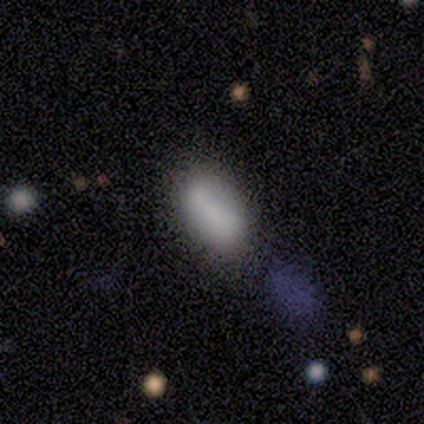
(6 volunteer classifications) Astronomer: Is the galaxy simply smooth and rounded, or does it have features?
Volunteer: smooth — 100%.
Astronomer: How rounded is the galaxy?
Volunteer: in between — 67%.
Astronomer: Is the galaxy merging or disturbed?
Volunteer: none — 50% (runner-up: merger, 33%).